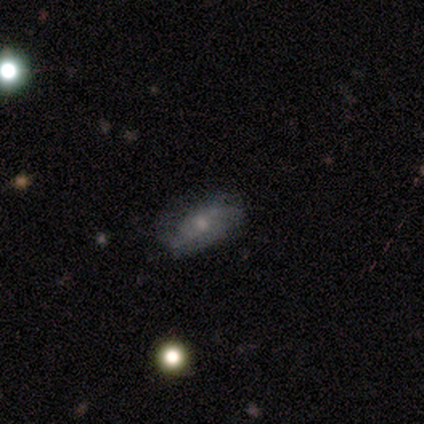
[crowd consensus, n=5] Volunteers were most divided on "bar" (2-way tie): strong: 50%, no: 50%, weak: 0%; "spiral arms" (2-way tie): yes: 50%, no: 50%; "bulge size" (2-way tie): moderate: 50%, small: 50%, dominant: 0%, large: 0%, none: 0%. More confident: spiral winding — loose (100%); spiral arm count — 2 (100%); edge-on disk — no (67%); smooth or featured — featured or disk (60%); merging — none (60%).